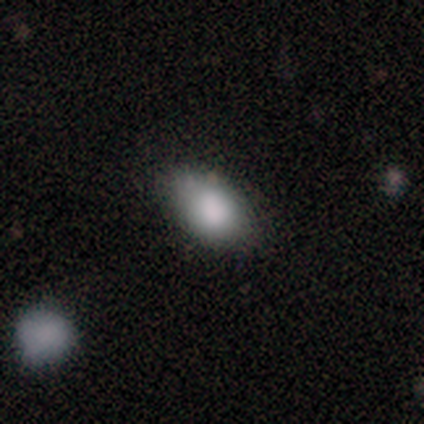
Smooth or featured? 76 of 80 (95%) said smooth. How rounded? 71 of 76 (93%) said in between. Merging? 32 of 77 (42%) said none.